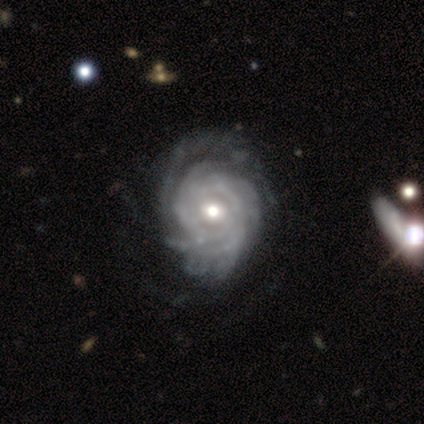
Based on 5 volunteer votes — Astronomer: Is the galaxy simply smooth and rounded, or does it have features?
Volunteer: featured or disk — 80%.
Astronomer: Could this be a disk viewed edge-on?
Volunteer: no — 100%.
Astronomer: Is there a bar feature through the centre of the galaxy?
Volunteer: no — 75%.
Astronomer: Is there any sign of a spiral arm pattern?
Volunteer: yes — 75%.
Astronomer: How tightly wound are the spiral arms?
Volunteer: tight — 100%.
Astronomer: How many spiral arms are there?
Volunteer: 3 — 33%, tied with 4 and can't tell at 33%.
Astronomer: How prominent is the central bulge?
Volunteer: moderate — 75%.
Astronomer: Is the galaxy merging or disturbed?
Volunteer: none — 75%.